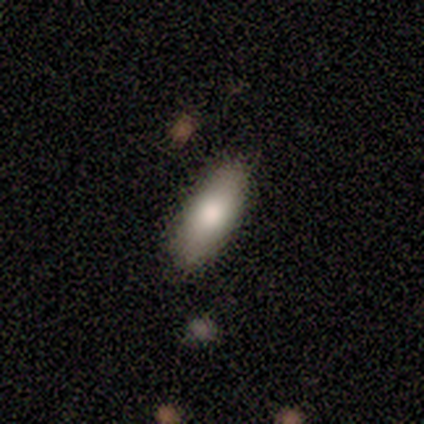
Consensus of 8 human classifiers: This appears to be a smooth galaxy with no disk features (88%) that is cigar-shaped (71%). Merging: none (100%).